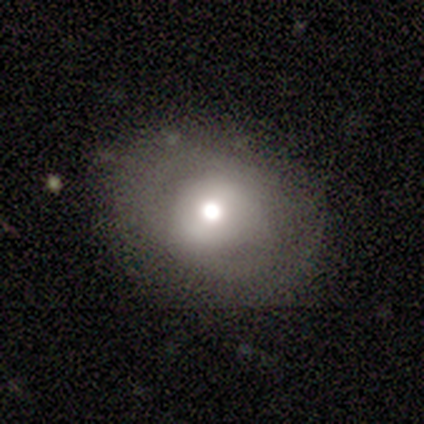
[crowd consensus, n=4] Smooth or featured? 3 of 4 (75%) said smooth. How rounded? 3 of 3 (100%) said in between. Merging? 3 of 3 (100%) said major disturbance.